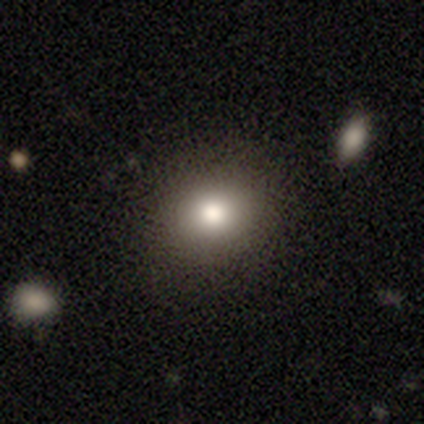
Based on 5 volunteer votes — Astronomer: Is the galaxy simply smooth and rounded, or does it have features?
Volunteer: smooth — 100%.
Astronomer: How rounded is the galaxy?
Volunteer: round — 60% (runner-up: in between, 40%).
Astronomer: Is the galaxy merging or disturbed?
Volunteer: none — 100%.